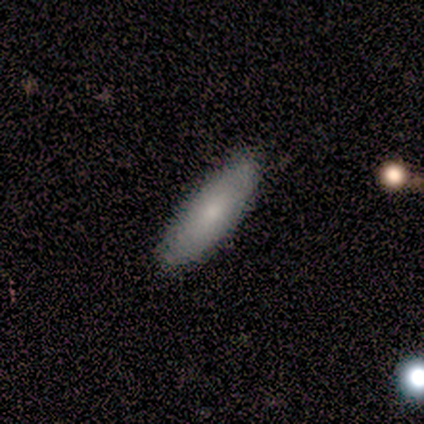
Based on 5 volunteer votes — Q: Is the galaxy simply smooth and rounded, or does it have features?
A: smooth — 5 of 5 (100%).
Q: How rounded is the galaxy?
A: in between — 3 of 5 (60%).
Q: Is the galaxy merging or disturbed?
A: none — 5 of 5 (100%).